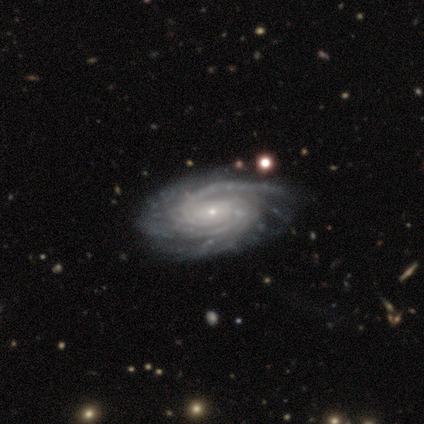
smooth-or-featured: featured or disk: 100% | smooth: 0% | star or artifact: 0%
  disk-edge-on: no: 100% | yes: 0%
    bar: no: 78% | weak: 22% | strong: 0%
    has-spiral-arms: yes: 100% | no: 0%
      spiral-winding: tight: 67% | loose: 22% | medium: 11%
      spiral-arm-count: 2: 33% | more than 4: 22% | can't tell: 22% | 1: 11% | 4: 11% | 3: 0%
    bulge-size: small: 100% | dominant: 0% | large: 0% | moderate: 0% | none: 0%
  merging: none: 67% | minor disturbance: 11% | major disturbance: 11% | merger: 11%